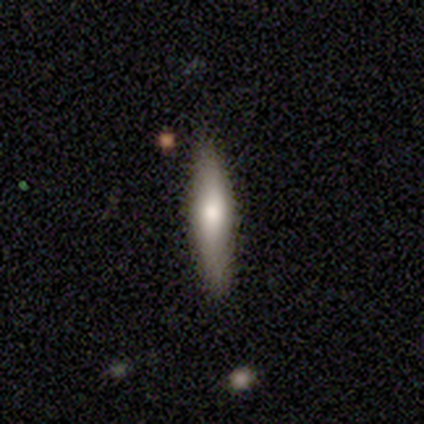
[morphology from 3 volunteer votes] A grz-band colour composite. It shows a smooth galaxy with no disk features (67%) that is cigar-shaped (100%). Merging: none (33%, tied with minor disturbance and merger).